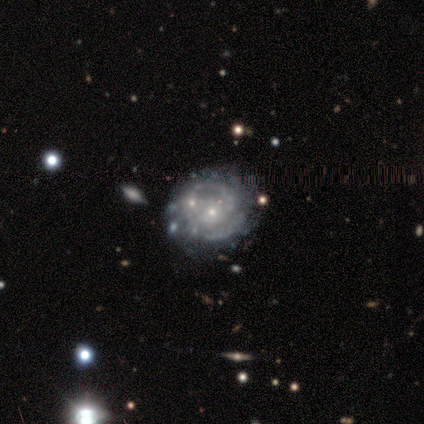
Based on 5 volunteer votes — Smooth or featured?
  - featured or disk: 100% *
  - smooth: 0%
  - star or artifact: 0%
Edge-on disk?
  - no: 100% *
  - yes: 0%
Bar?
  - no: 80% *
  - weak: 20%
  - strong: 0%
Spiral arms?
  - yes: 60% *
  - no: 40%
Spiral winding?
  - tight: 100% *
  - medium: 0%
  - loose: 0%
Spiral arm count?
  - can't tell: 67% *
  - 2: 33%
  - 1: 0%
  - 3: 0%
  - 4: 0%
  - more than 4: 0%
Bulge size?
  - small: 60% *
  - moderate: 40%
  - dominant: 0%
  - large: 0%
  - none: 0%
Merging?
  - none: 80% *
  - minor disturbance: 20%
  - major disturbance: 0%
  - merger: 0%